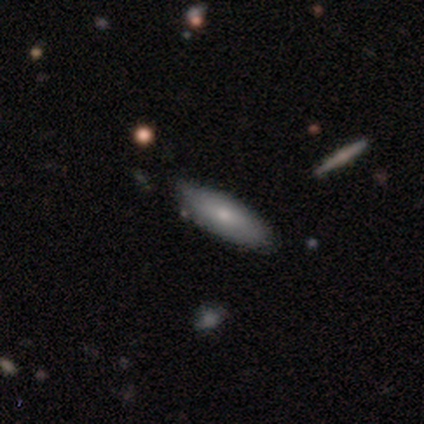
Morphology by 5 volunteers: Overall: smooth (80%). How rounded: in between (50%, tied with cigar-shaped). Merging: none (100%).